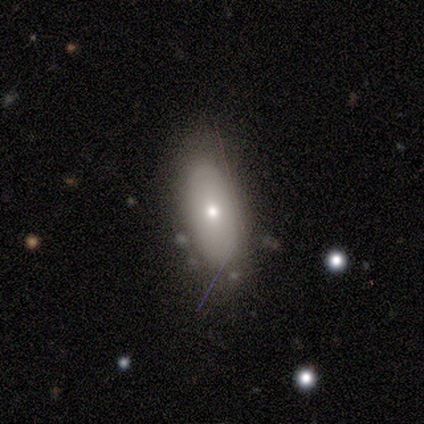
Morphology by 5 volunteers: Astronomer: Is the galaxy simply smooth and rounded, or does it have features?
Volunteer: smooth — 100%.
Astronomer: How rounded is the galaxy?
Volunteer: in between — 100%.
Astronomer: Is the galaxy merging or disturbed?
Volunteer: none — 100%.